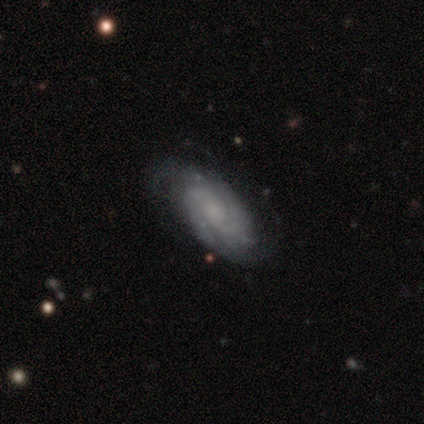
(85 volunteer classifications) smooth_or_featured: featured or disk (p=0.75) [alt: smooth p=0.16]
disk_edge_on: no (p=1.00)
bar: no (p=0.77) [alt: weak p=0.20]
has_spiral_arms: yes (p=0.97) [alt: no p=0.03]
spiral_winding: tight (p=0.60) [alt: medium p=0.32]
spiral_arm_count: 2 (p=0.44) [alt: can't tell p=0.31]
bulge_size: small (p=0.53) [alt: none p=0.34]
merging: none (p=0.74) [alt: minor disturbance p=0.19]